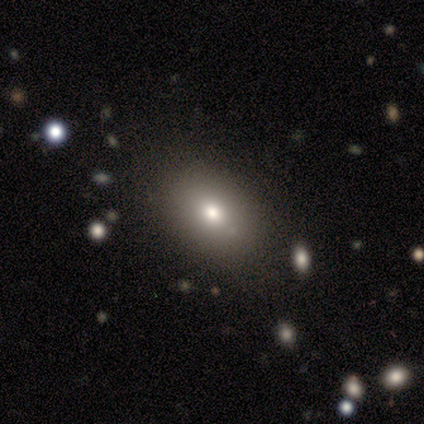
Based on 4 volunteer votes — Volunteers were most divided on "smooth or featured": smooth: 50%, featured or disk: 25%, star or artifact: 25%. More confident: how rounded — in between (100%); merging — none (100%).